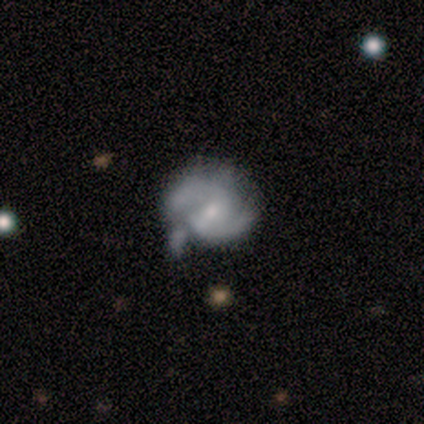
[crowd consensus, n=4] featured or disk 100%, smooth 0%, star or artifact 0%. Down the decision tree: edge-on disk — no (100%); bar — weak (75%); spiral arms — yes (100%); spiral arm count — 2 (100%); spiral winding — medium (75%); bulge size — small (75%); merging — minor disturbance (75%).